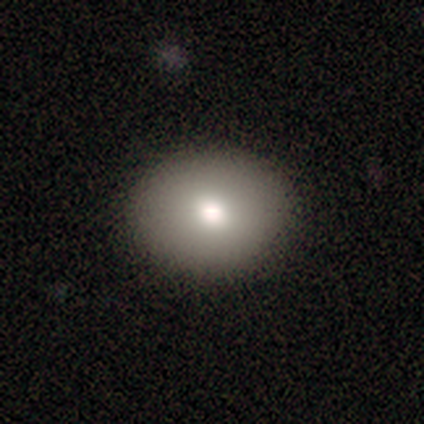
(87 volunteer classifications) Overall: smooth (84%). How rounded: round (55%; in between 45%). Merging: none (91%).